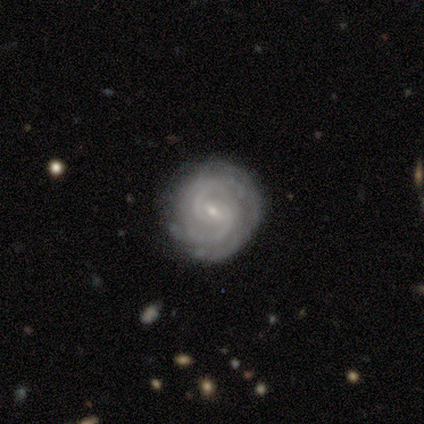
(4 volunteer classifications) smooth_or_featured: smooth (p=0.50) [tied with: featured or disk p=0.50]
how_rounded: round (p=1.00)
merging: none (p=0.75) [alt: minor disturbance p=0.25]